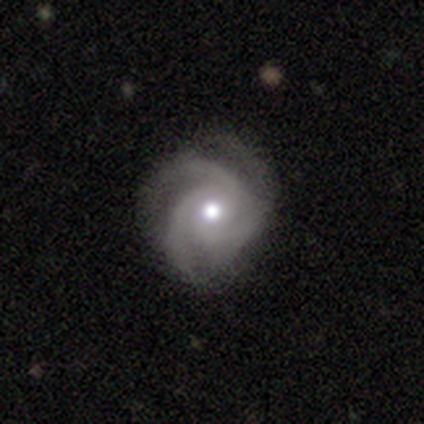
Smooth or featured: featured or disk — 100%
Edge-on disk: no — 100%
Bar: no — 80% (strong — 20%)
Spiral arms: yes — 100%
Spiral winding: tight — 40% (tied with medium — 40%)
Spiral arm count: 3 — 60% (2 — 20%)
Bulge size: moderate — 100%
Merging: none — 40% (tied with minor disturbance — 40%)